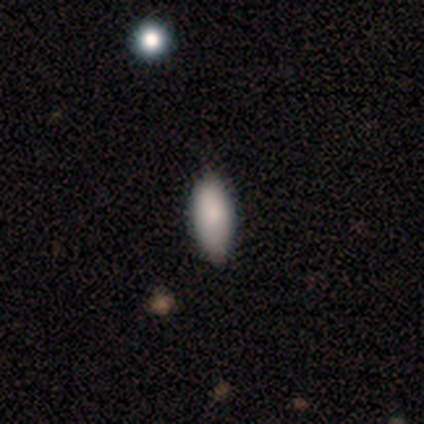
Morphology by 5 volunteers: featured or disk 60%, smooth 40%, star or artifact 0%. Down the decision tree: edge-on disk — yes (67%); edge-on bulge — none (50%, tied with rounded); merging — none (80%).